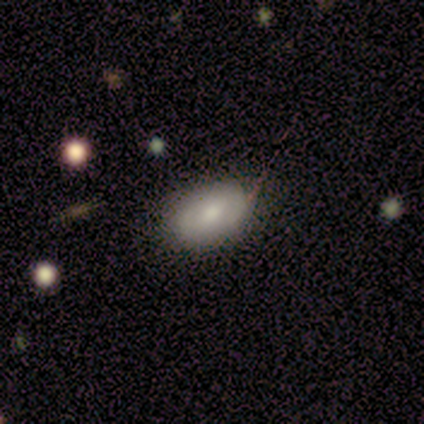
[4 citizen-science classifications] A smooth galaxy with no disk features (100%) that is in between round and cigar-shaped (75%).

Vote fractions:
- Smooth or featured? smooth: 100% / featured or disk: 0% / star or artifact: 0%
- How rounded? in between: 75% / round: 25% / cigar-shaped: 0%
- Merging? none: 75% / minor disturbance: 25% / major disturbance: 0% / merger: 0%